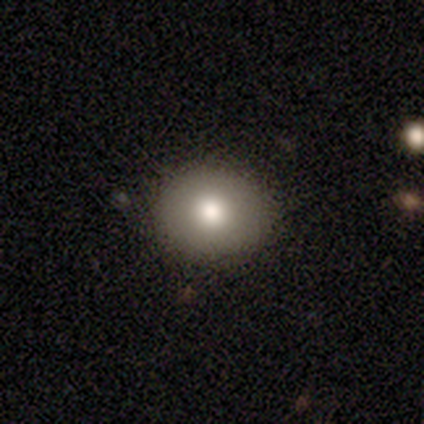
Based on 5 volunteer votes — Overall: smooth (40%, tied with featured or disk). How rounded: round (50%, tied with in between). Merging: none (100%).